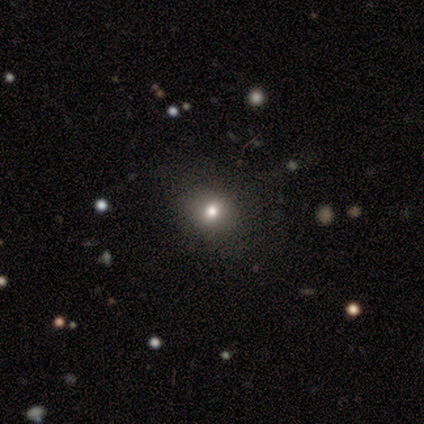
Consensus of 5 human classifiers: Smooth or featured?
  - smooth: 80% *
  - featured or disk: 20%
  - star or artifact: 0%
How rounded?
  - round: 100% *
  - in between: 0%
  - cigar-shaped: 0%
Merging?
  - none: 80% *
  - minor disturbance: 20%
  - major disturbance: 0%
  - merger: 0%